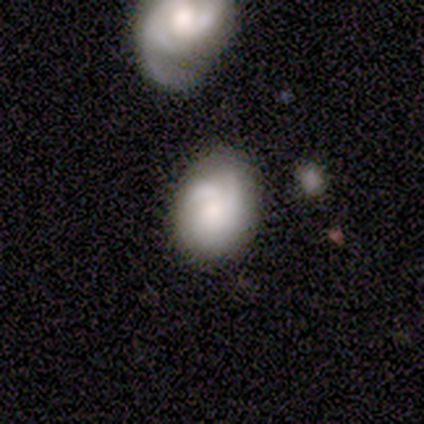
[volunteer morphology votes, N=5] Q: Smooth or featured?
A: featured or disk (60%); runner-up: smooth (40%)
Q: Edge-on disk?
A: no (100%)
Q: Bar?
A: no (67%); runner-up: weak (33%)
Q: Spiral arms?
A: yes (100%)
Q: Spiral winding?
A: tight (67%); runner-up: medium (33%)
Q: Spiral arm count?
A: 1 (67%); runner-up: can't tell (33%)
Q: Bulge size?
A: large (33%); tied with: moderate (33%); small (33%)
Q: Merging?
A: none (60%); runner-up: merger (40%)